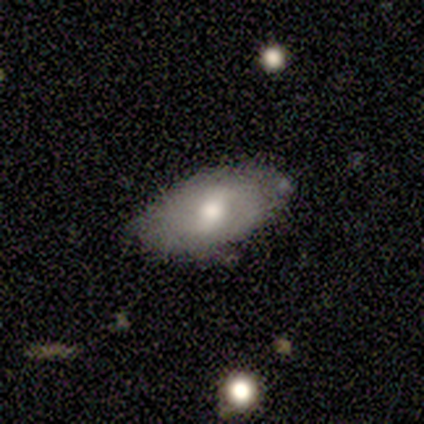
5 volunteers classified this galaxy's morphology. Smooth or featured? 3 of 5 (60%) said smooth. How rounded? 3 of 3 (100%) said in between. Merging? 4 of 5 (80%) said none.